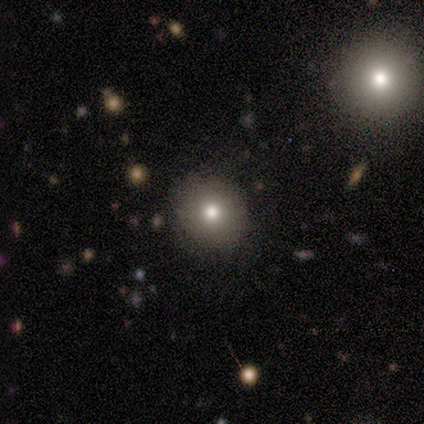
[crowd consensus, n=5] Overall: smooth (80%). How rounded: round (100%). Merging: none (100%).